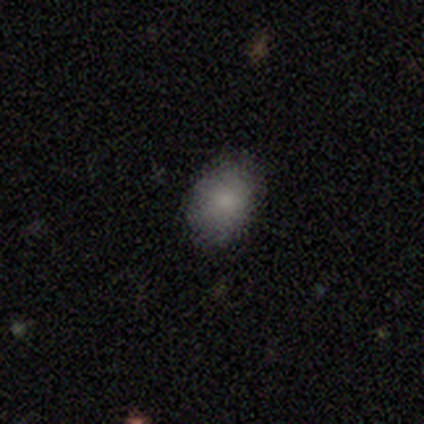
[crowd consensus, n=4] A smooth galaxy with no disk features (50%) that is round (50%, tied with in between). Merging: none (100%).